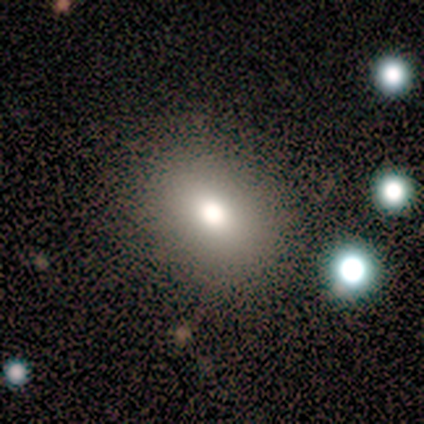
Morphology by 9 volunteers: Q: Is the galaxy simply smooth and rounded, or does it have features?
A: smooth — 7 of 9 (78%).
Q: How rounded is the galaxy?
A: round — 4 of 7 (57%).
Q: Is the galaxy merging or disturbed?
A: none — 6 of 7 (86%).